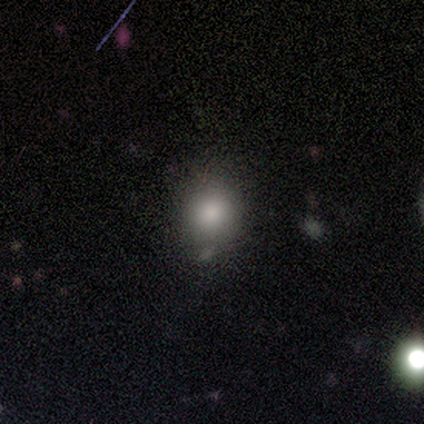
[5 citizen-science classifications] smooth_or_featured: smooth (p=0.80) [alt: featured or disk p=0.20]
how_rounded: round (p=0.50) [tied with: in between p=0.50]
merging: none (p=0.80) [alt: minor disturbance p=0.20]